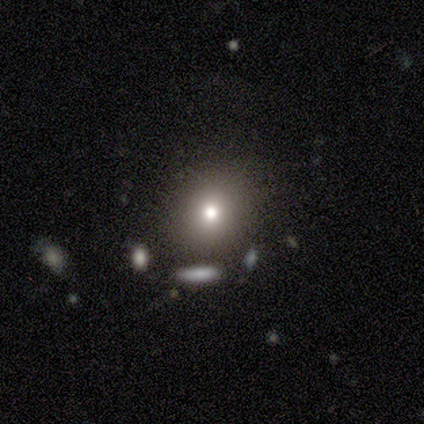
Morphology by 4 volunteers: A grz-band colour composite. It shows a smooth galaxy with no disk features (50%) that is round (100%). Merging: none (100%).